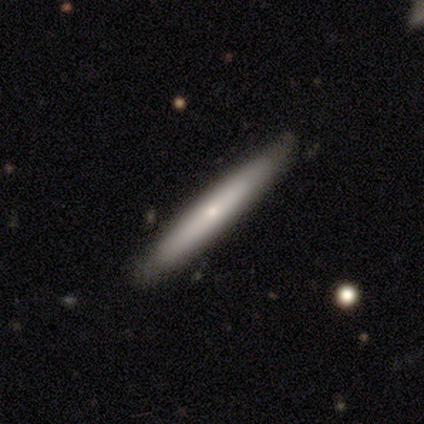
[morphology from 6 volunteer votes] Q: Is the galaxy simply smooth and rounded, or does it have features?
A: smooth — 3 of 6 (50%, tied with featured or disk).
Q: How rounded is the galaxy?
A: cigar-shaped — 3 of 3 (100%).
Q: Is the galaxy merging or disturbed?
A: none — 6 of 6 (100%).